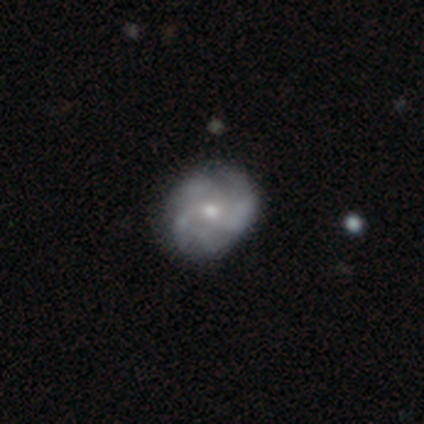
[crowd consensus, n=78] Volunteers were most divided on "spiral winding": tight: 44%, medium: 39%, loose: 18%. Remaining: edge-on disk — no (100%); spiral arms — yes (92%); bar — no (85%); smooth or featured — featured or disk (79%); bulge size — small (53%); spiral arm count — 4 (42%); merging — none (39%).